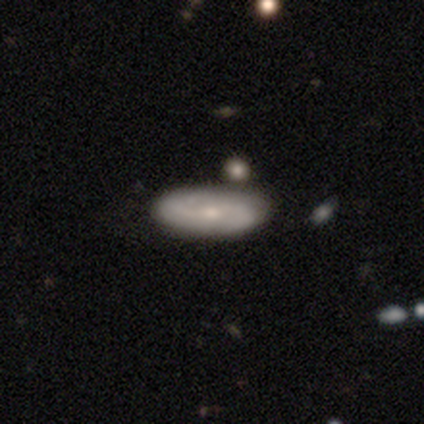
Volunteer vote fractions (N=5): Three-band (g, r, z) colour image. It shows a featured or disk galaxy (80%) with no bar (67%), 2 (100%) medium (67%) spiral arms (100%) and a small central bulge (100%). Merging: none (100%).